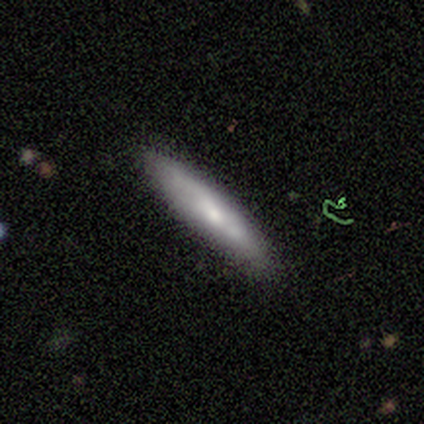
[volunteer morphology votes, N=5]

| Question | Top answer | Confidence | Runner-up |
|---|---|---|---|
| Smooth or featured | smooth | 100% | — |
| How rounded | cigar-shaped | 80% | in between (20%) |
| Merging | none | 100% | — |